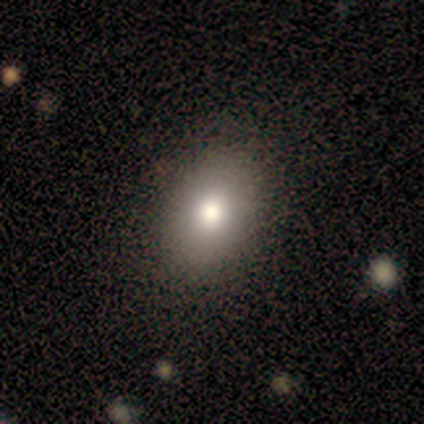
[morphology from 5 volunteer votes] smooth_or_featured: smooth (p=0.80) [alt: star or artifact p=0.20]
how_rounded: in between (p=0.75) [alt: round p=0.25]
merging: none (p=0.75) [alt: minor disturbance p=0.25]